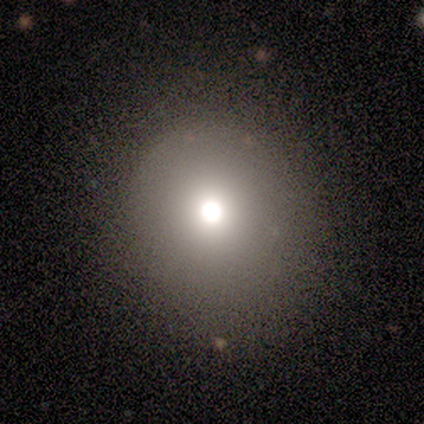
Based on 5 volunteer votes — Smooth or featured: smooth — 80% (star or artifact — 20%)
How rounded: round — 100%
Merging: none — 100%